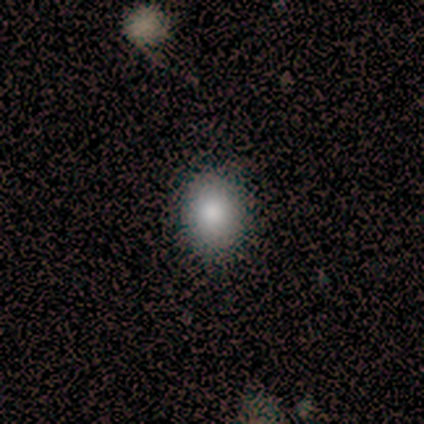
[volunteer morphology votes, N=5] smooth_or_featured: smooth (p=1.00)
how_rounded: in between (p=0.80) [alt: round p=0.20]
merging: none (p=0.80) [alt: minor disturbance p=0.20]